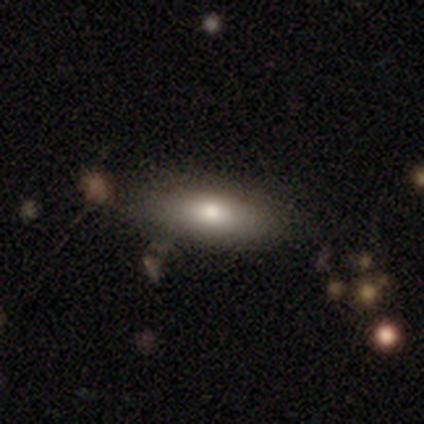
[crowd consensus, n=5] A smooth galaxy with no disk features (60%) that is in between round and cigar-shaped (100%).

Vote fractions:
- Smooth or featured? smooth: 60% / featured or disk: 20% / star or artifact: 20%
- How rounded? in between: 100% / round: 0% / cigar-shaped: 0%
- Merging? none: 50% / minor disturbance: 25% / major disturbance: 25% / merger: 0%